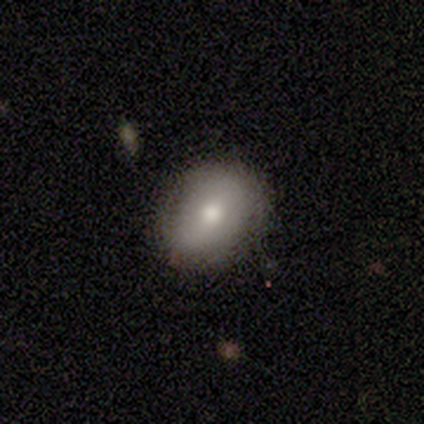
Smooth or featured? 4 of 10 (40%, tied with featured or disk) said smooth. How rounded? 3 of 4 (75%) said in between. Merging? 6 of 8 (75%) said none.